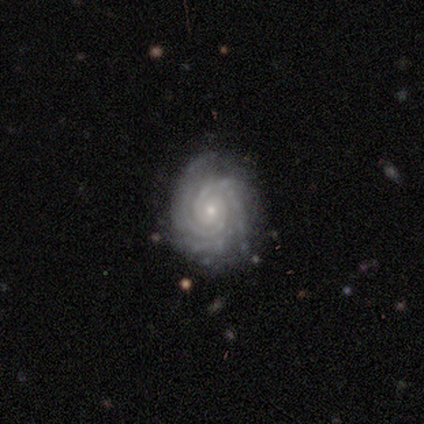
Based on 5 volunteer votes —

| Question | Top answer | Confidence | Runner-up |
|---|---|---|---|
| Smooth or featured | featured or disk | 100% | — |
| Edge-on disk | no | 100% | — |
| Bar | no | 80% | weak (20%) |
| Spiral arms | yes | 100% | — |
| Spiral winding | tight | 100% | — |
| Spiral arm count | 2 | 40% | tied: 3 (40%) |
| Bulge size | small | 80% | moderate (20%) |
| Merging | none | 100% | — |